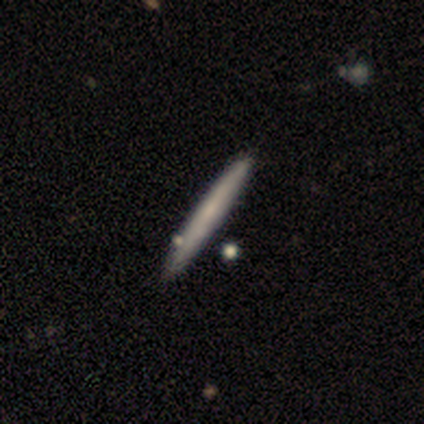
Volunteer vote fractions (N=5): Volunteers were most divided on "smooth or featured": smooth: 60%, featured or disk: 40%, star or artifact: 0%. More confident: how rounded — cigar-shaped (100%); merging — none (100%).